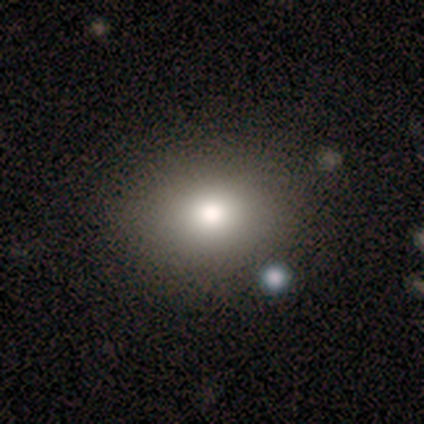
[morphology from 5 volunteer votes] This is likely a smooth galaxy (60%). How rounded: likely round (67%). Merging: clearly none (100%).